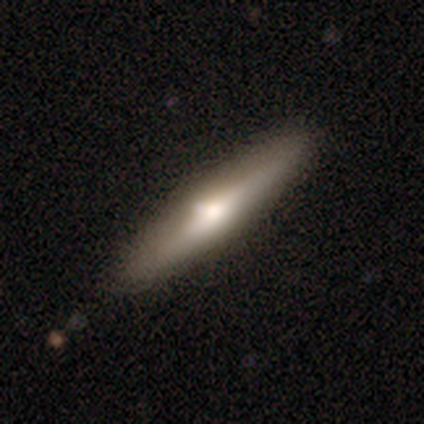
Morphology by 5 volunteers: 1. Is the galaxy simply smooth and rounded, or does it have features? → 80% featured or disk, 20% smooth, 0% star or artifact.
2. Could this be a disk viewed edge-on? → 75% yes, 25% no.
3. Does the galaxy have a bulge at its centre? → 100% rounded, 0% boxy, 0% none.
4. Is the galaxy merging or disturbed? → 80% none, 20% minor disturbance, 0% major disturbance, 0% merger.